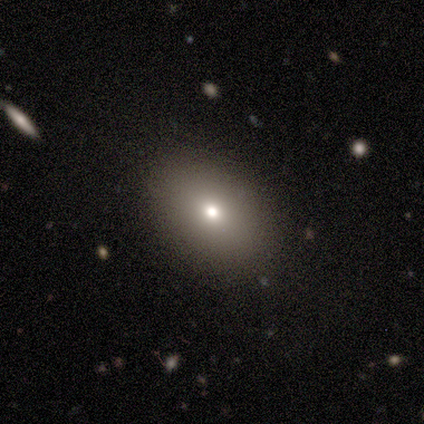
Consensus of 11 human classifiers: Smooth or featured? 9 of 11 (82%) said smooth. How rounded? 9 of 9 (100%) said in between. Merging? 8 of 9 (89%) said none.